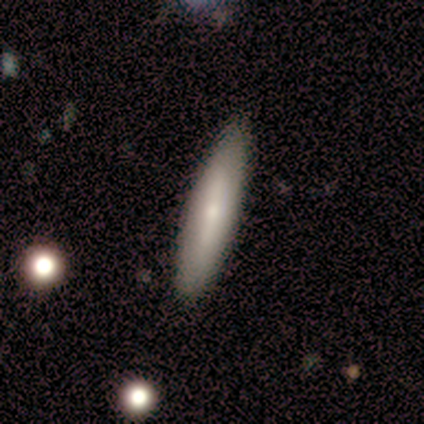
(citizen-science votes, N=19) This appears to be a smooth galaxy with no disk features (79%) that is cigar-shaped (73%). Merging: none (95%).